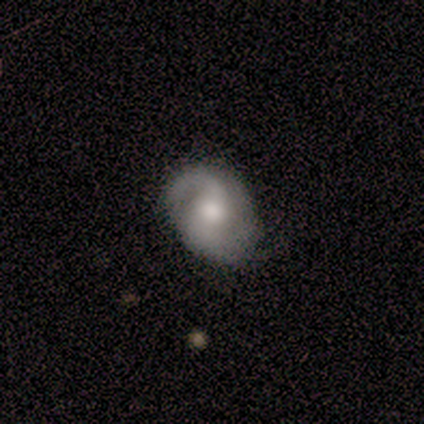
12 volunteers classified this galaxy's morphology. Smooth or featured? 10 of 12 (83%) said featured or disk. Edge-on disk? 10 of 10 (100%) said no. Bar? 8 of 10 (80%) said no. Spiral arms? 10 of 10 (100%) said yes. Spiral winding? 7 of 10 (70%) said medium. Spiral arm count? 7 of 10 (70%) said 2. Bulge size? 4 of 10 (40%) said large. Merging? 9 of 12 (75%) said none.